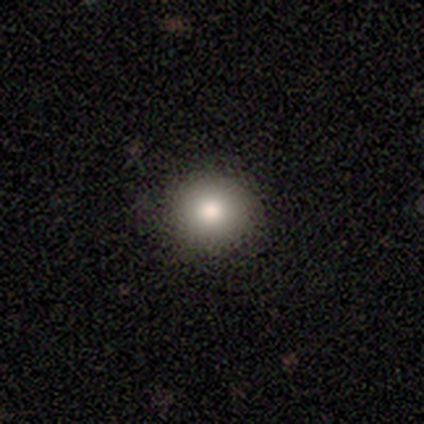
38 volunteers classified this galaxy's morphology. A smooth galaxy with no disk features (82%) that is round (87%). Merging: none (94%).